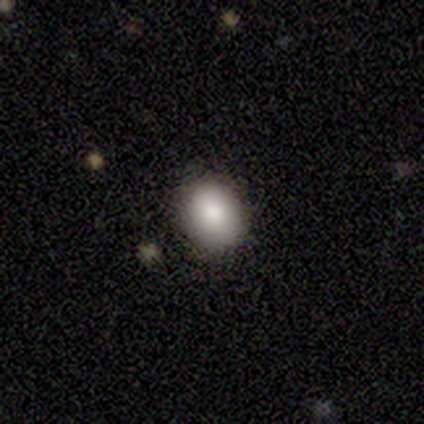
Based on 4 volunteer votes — Smooth or featured? 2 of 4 (50%, tied with featured or disk) said smooth. How rounded? 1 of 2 (50%, tied with in between) said round. Merging? 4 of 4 (100%) said none.